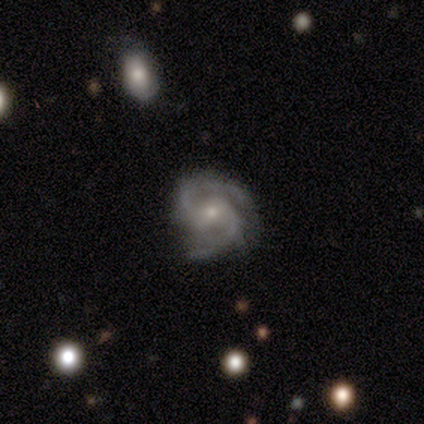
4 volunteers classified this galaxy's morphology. Smooth or featured? featured or disk (100%)
Edge-on disk? no (100%)
Bar? weak (50%, tied with no)
Spiral arms? yes (100%)
Spiral winding? tight (50%)
Spiral arm count? 2 (75%)
Bulge size? small (75%)
Merging? none (75%)